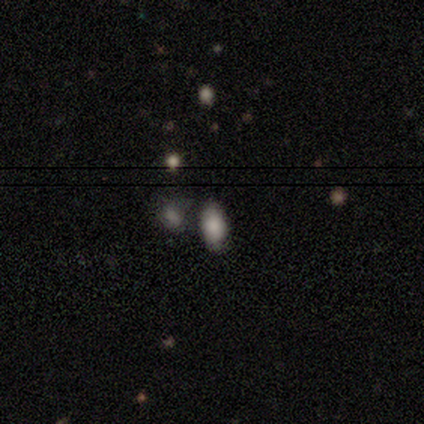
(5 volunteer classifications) Smooth or featured? smooth (100%)
How rounded? in between (100%)
Merging? none (80%)